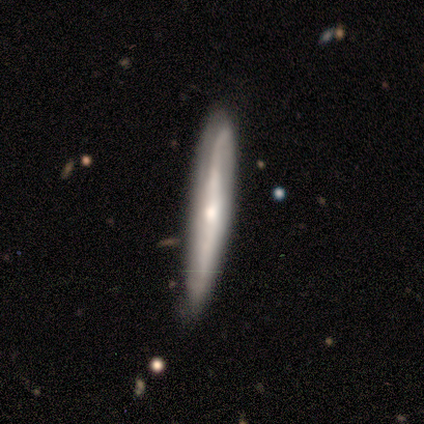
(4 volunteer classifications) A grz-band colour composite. It shows a featured or disk galaxy (50%) viewed edge-on (100%) with a rounded central bulge (100%). Merging: none (67%).